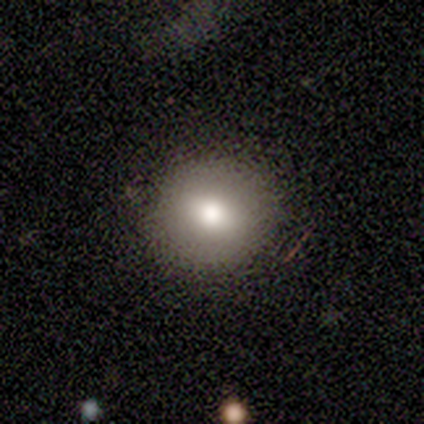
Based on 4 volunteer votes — smooth_or_featured: smooth (p=0.75) [alt: star or artifact p=0.25]
how_rounded: round (p=0.67) [alt: in between p=0.33]
merging: none (p=1.00)